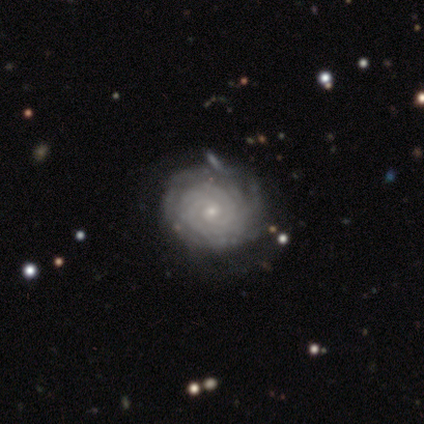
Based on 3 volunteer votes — Smooth or featured? 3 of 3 (100%) said featured or disk. Edge-on disk? 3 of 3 (100%) said no. Bar? 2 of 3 (67%) said no. Spiral arms? 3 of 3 (100%) said yes. Spiral winding? 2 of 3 (67%) said tight. Spiral arm count? 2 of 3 (67%) said can't tell. Bulge size? 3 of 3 (100%) said small. Merging? 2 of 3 (67%) said none.